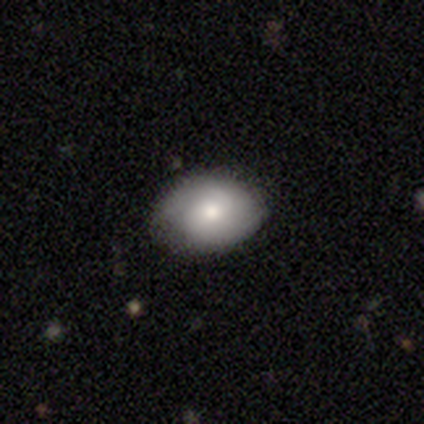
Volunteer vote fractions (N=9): Morphology: type=featured or disk (56%); edge-on=no (100%); bar=weak (60%); spiral arms=yes (60%); winding=tight (67%); arm count=2 (67%); bulge=moderate (40%, tied with small); merging=none (78%).